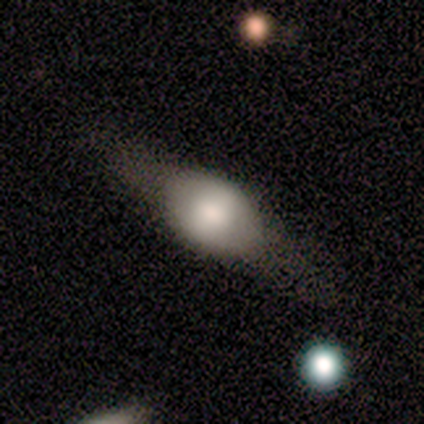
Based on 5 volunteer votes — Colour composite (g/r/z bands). It shows a featured or disk galaxy (100%) viewed edge-on (80%) with a rounded central bulge (100%). Merging: none (100%).